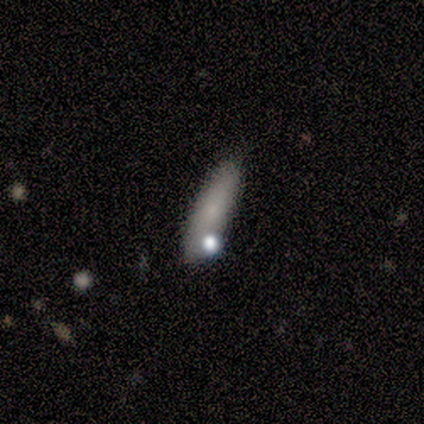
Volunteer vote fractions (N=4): This is possibly a smooth galaxy (50%). How rounded: clearly cigar-shaped (100%). Merging: clearly none (100%).